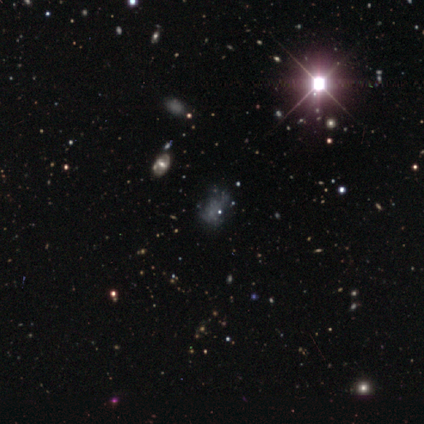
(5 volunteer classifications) smooth 60%, featured or disk 40%, star or artifact 0%. Down the decision tree: how rounded — in between (100%); merging — minor disturbance (40%, tied with major disturbance).